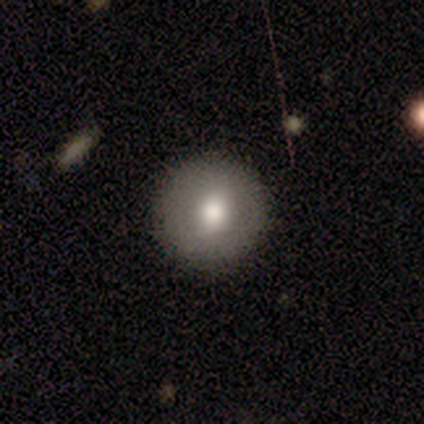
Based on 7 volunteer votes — Smooth or featured?
  - smooth: 57% *
  - star or artifact: 29%
  - featured or disk: 14%
How rounded?
  - round: 100% *
  - in between: 0%
  - cigar-shaped: 0%
Merging?
  - none: 100% *
  - minor disturbance: 0%
  - major disturbance: 0%
  - merger: 0%